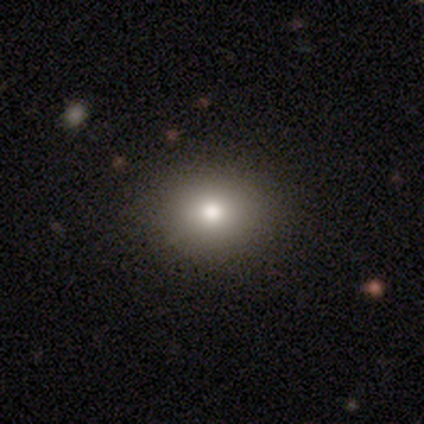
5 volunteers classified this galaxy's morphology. smooth-or-featured: smooth: 100% | featured or disk: 0% | star or artifact: 0%
  how-rounded: round: 60% | in between: 40% | cigar-shaped: 0%
  merging: none: 100% | minor disturbance: 0% | major disturbance: 0% | merger: 0%